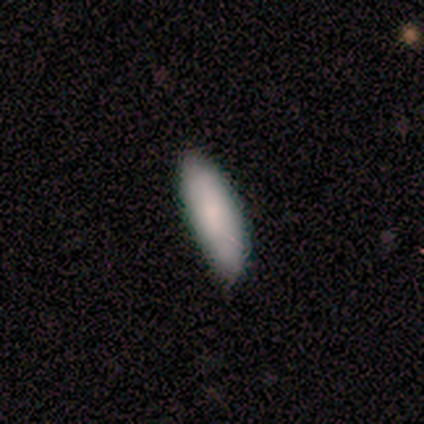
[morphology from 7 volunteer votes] Smooth or featured: smooth — 86% (star or artifact — 14%)
How rounded: cigar-shaped — 67% (in between — 33%)
Merging: none — 100%